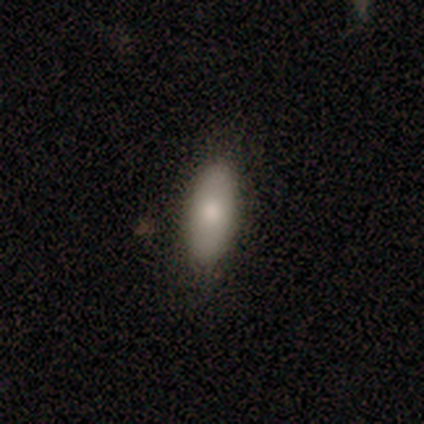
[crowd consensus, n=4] Q: Smooth or featured?
A: smooth (100%)
Q: How rounded?
A: in between (75%); runner-up: cigar-shaped (25%)
Q: Merging?
A: none (100%)